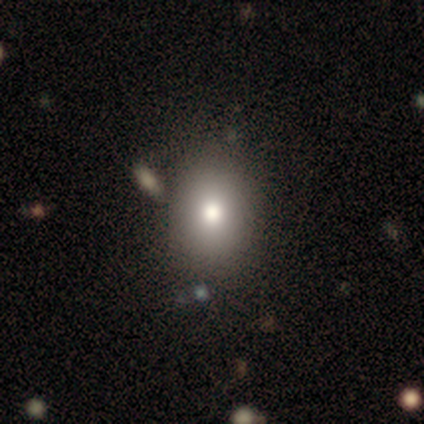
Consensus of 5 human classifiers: Q: Smooth or featured?
A: smooth (80%); runner-up: featured or disk (20%)
Q: How rounded?
A: in between (75%); runner-up: round (25%)
Q: Merging?
A: none (80%); runner-up: merger (20%)